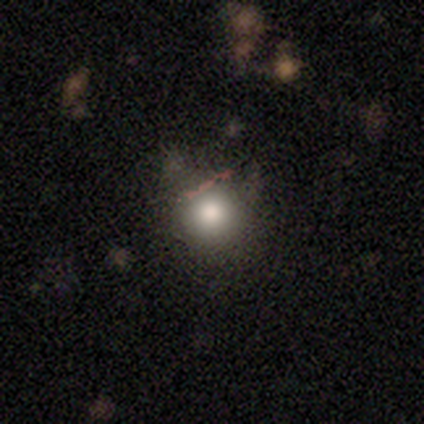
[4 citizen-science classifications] smooth 75%, featured or disk 25%, star or artifact 0%. Down the decision tree: how rounded — round (100%); merging — none (75%).